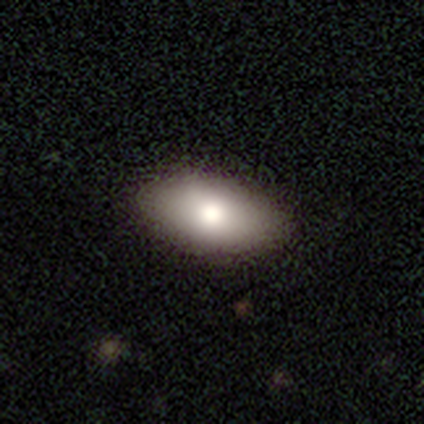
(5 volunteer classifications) A smooth galaxy with no disk features (80%) that is in between round and cigar-shaped (75%).

Vote fractions:
- Smooth or featured? smooth: 80% / featured or disk: 20% / star or artifact: 0%
- How rounded? in between: 75% / round: 25% / cigar-shaped: 0%
- Merging? none: 100% / minor disturbance: 0% / major disturbance: 0% / merger: 0%